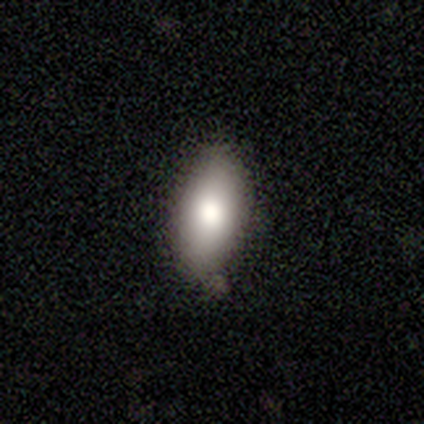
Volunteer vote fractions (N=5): A smooth galaxy with no disk features (100%) that is in between round and cigar-shaped (100%).

Vote fractions:
- Smooth or featured? smooth: 100% / featured or disk: 0% / star or artifact: 0%
- How rounded? in between: 100% / round: 0% / cigar-shaped: 0%
- Merging? minor disturbance: 60% / none: 40% / major disturbance: 0% / merger: 0%